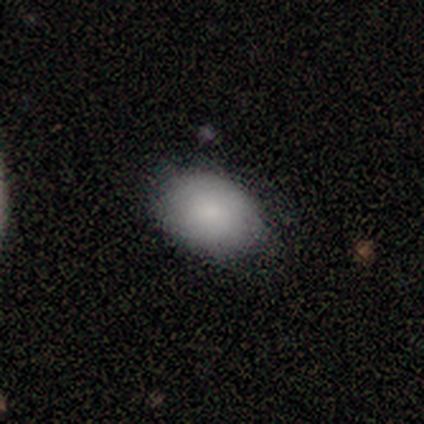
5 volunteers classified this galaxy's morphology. Smooth or featured? smooth (80%)
How rounded? in between (75%)
Merging? none (75%)